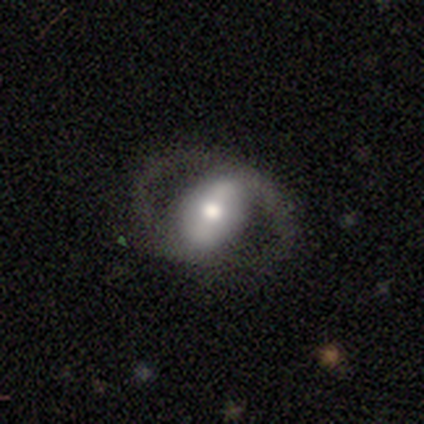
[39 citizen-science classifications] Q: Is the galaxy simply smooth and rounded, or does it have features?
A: featured or disk — 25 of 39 (64%).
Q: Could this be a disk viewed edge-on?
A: no — 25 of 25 (100%).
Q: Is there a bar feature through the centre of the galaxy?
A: strong — 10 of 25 (40%).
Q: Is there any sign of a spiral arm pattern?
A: yes — 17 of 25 (68%).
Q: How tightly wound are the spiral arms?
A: loose — 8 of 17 (47%).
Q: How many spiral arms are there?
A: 2 — 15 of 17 (88%).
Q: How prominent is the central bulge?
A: moderate — 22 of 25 (88%).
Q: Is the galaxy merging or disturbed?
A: none — 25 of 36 (69%).